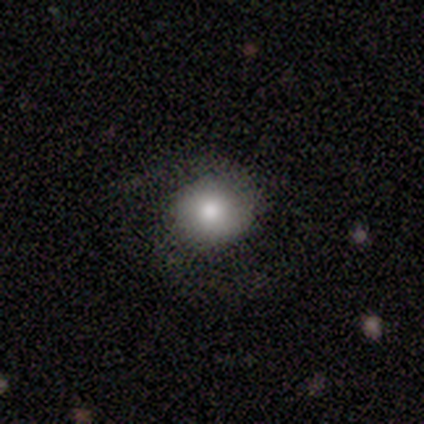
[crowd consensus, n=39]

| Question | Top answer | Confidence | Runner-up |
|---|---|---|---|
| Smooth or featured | smooth | 62% | featured or disk (28%) |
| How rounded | round | 83% | in between (17%) |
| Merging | none | 69% | minor disturbance (17%) |